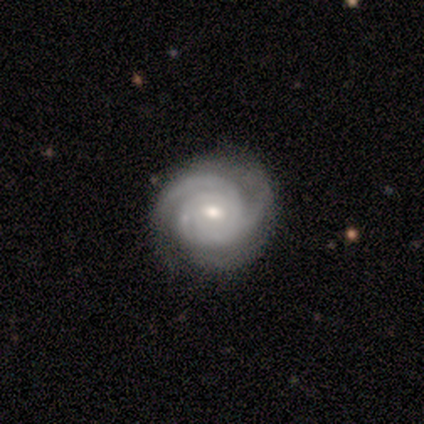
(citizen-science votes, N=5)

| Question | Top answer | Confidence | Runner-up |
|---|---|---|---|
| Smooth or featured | featured or disk | 80% | smooth (20%) |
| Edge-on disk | no | 100% | — |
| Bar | weak | 75% | no (25%) |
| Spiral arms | yes | 100% | — |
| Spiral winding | tight | 100% | — |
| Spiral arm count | can't tell | 50% | 2 (25%) |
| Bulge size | small | 75% | moderate (25%) |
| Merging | none | 80% | minor disturbance (20%) |